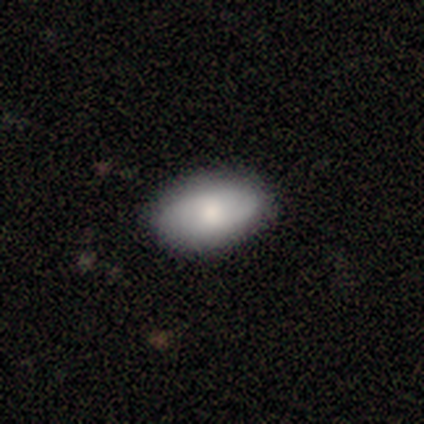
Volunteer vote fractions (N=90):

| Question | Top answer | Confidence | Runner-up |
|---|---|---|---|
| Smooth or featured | smooth | 73% | featured or disk (20%) |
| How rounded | in between | 94% | round (5%) |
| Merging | none | 88% | minor disturbance (10%) |